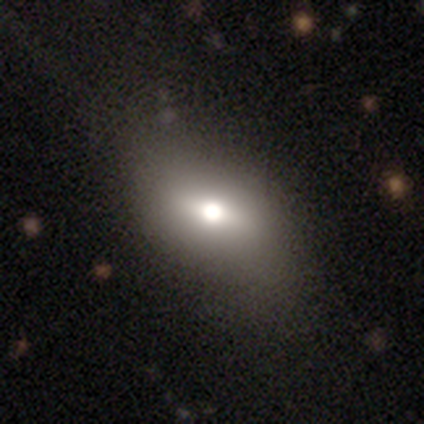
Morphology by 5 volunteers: Q: Smooth or featured?
A: smooth (60%); runner-up: featured or disk (40%)
Q: How rounded?
A: in between (100%)
Q: Merging?
A: none (60%); runner-up: minor disturbance (20%)